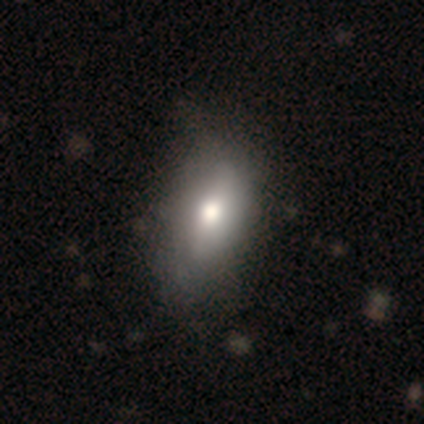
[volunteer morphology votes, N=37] Volunteers were most divided on "merging": none: 39%, minor disturbance: 22%, merger: 3%, major disturbance: 0%. More confident: how rounded — in between (93%); smooth or featured — smooth (76%).